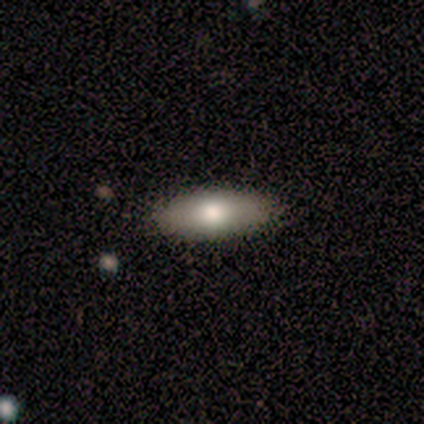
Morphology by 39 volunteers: Smooth or featured? smooth (64%)
How rounded? in between (68%)
Merging? none (97%)